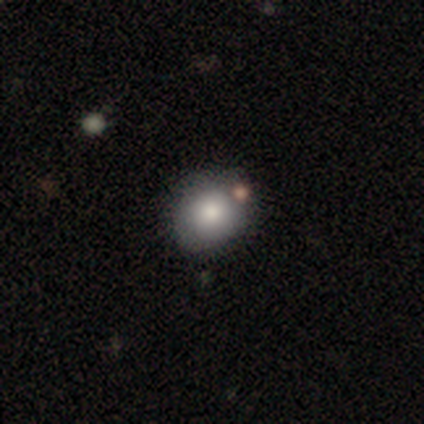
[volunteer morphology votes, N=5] This appears to be a smooth galaxy with no disk features (80%) that is round (50%, tied with in between). Merging: none (75%).